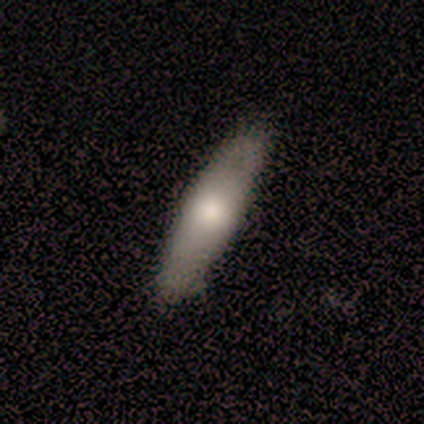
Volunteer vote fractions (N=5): This appears to be a smooth galaxy with no disk features (80%) that is cigar-shaped (75%). Merging: none (50%, tied with minor disturbance).